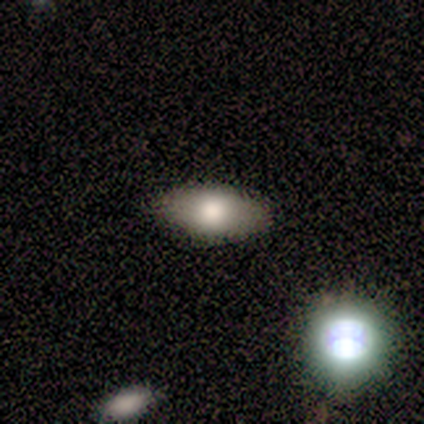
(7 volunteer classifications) Q: Smooth or featured?
A: smooth (100%)
Q: How rounded?
A: in between (71%); runner-up: round (14%)
Q: Merging?
A: none (86%); runner-up: minor disturbance (14%)